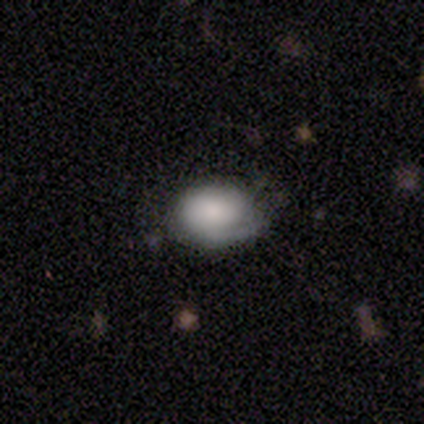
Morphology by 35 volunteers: A smooth galaxy with no disk features (66%) that is in between round and cigar-shaped (87%).

Vote fractions:
- Smooth or featured? smooth: 66% / featured or disk: 31% / star or artifact: 3%
- How rounded? in between: 87% / round: 13% / cigar-shaped: 0%
- Merging? none: 53% / minor disturbance: 29% / major disturbance: 15% / merger: 3%